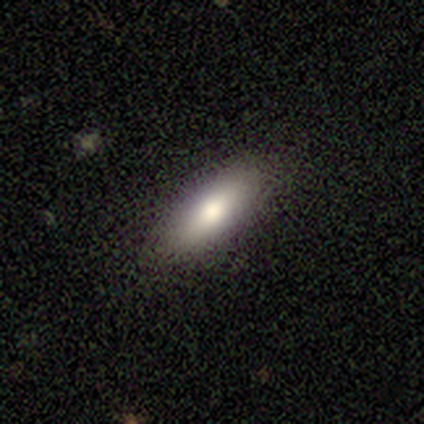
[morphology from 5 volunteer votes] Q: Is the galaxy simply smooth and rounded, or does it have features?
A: smooth — 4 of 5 (80%).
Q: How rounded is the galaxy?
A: in between — 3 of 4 (75%).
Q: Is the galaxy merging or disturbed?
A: none — 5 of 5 (100%).